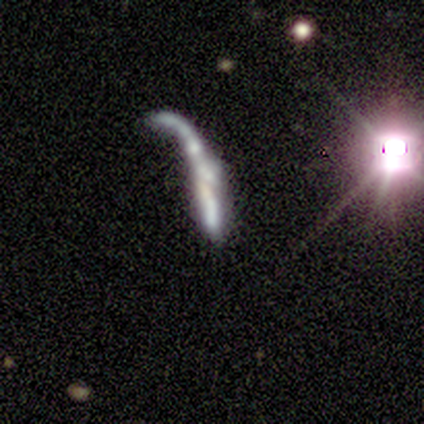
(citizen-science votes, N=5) Smooth or featured? 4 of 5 (80%) said featured or disk. Edge-on disk? 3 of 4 (75%) said yes. Edge-on bulge? 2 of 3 (67%) said rounded. Merging? 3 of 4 (75%) said major disturbance.